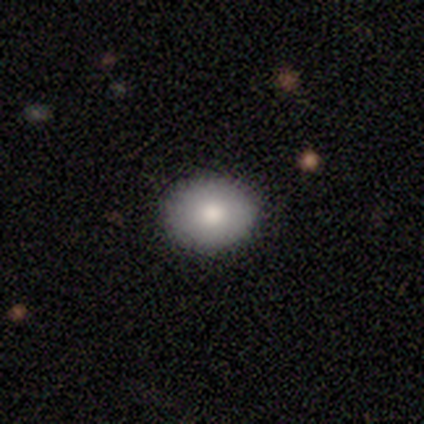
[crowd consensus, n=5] smooth_or_featured: smooth (p=1.00)
how_rounded: round (p=0.60) [alt: in between p=0.40]
merging: none (p=1.00)